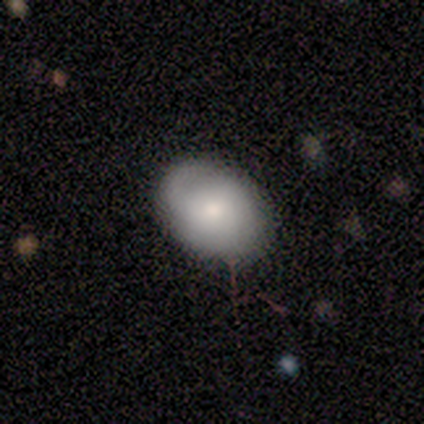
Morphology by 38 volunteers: A smooth galaxy with no disk features (58%) that is in between round and cigar-shaped (82%).

Vote fractions:
- Smooth or featured? smooth: 58% / featured or disk: 32% / star or artifact: 11%
- How rounded? in between: 82% / round: 18% / cigar-shaped: 0%
- Merging? none: 59% / minor disturbance: 32% / major disturbance: 6% / merger: 3%